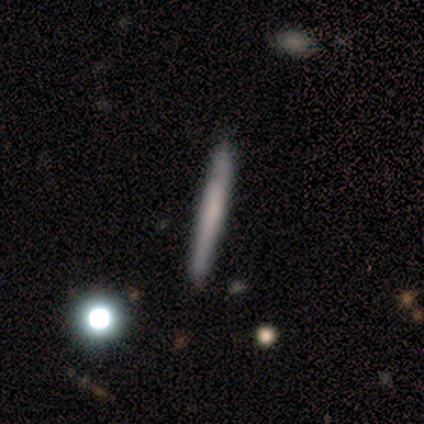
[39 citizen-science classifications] Smooth or featured: smooth — 51% (featured or disk — 44%)
How rounded: cigar-shaped — 95% (in between — 5%)
Merging: none — 78% (minor disturbance — 5%)